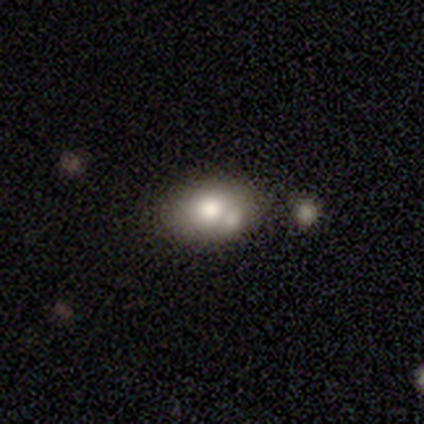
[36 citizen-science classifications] Morphology: type=smooth (69%); roundness=in between (68%); merging=none (58%).